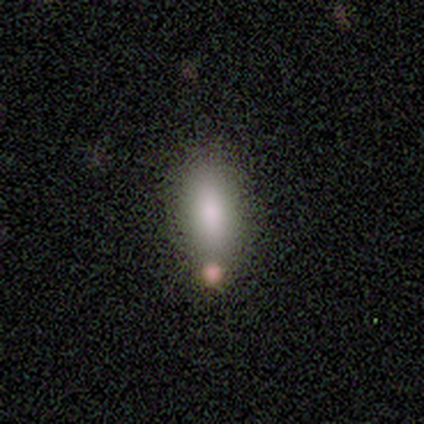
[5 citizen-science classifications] A smooth galaxy with no disk features (100%) that is in between round and cigar-shaped (80%). Merging: none (80%).